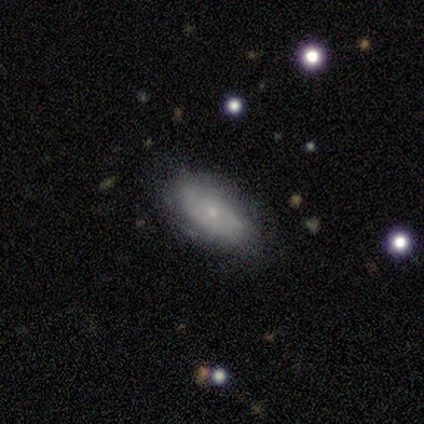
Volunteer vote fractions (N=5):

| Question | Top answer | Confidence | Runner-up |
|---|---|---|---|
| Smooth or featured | featured or disk | 60% | smooth (40%) |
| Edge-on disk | no | 100% | — |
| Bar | no | 67% | weak (33%) |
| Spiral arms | yes | 100% | — |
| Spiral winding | medium | 67% | tight (33%) |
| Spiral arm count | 2 | 67% | can't tell (33%) |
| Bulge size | moderate | 67% | small (33%) |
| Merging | none | 100% | — |